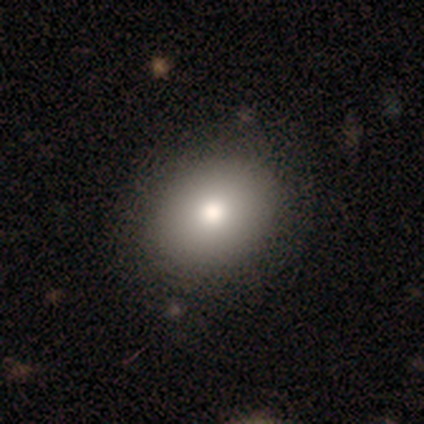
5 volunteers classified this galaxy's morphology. A smooth galaxy with no disk features (100%) that is in between round and cigar-shaped (60%). Merging: none (60%).